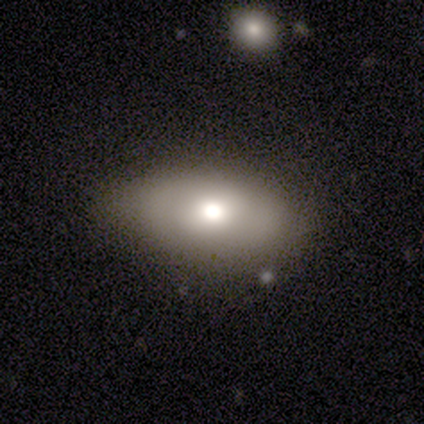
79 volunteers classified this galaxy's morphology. This is likely a smooth galaxy (65%). How rounded: clearly in between (92%). Merging: marginally none (33%).